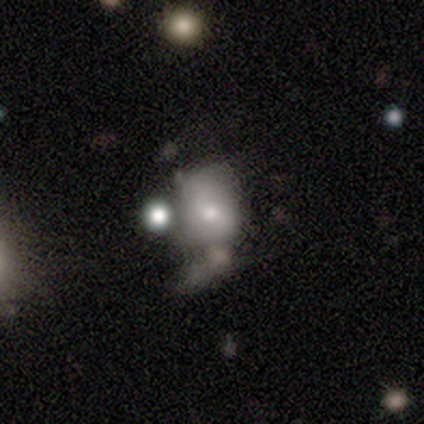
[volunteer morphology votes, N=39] This is possibly a smooth galaxy (46%). How rounded: likely in between (67%). Merging: marginally none (34%).